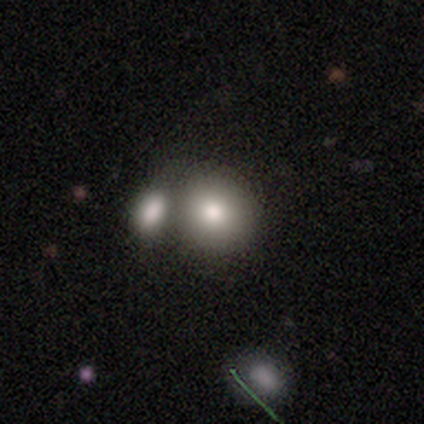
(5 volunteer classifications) Smooth or featured?
  - smooth: 80% *
  - star or artifact: 20%
  - featured or disk: 0%
How rounded?
  - round: 75% *
  - in between: 25%
  - cigar-shaped: 0%
Merging?
  - none: 75% *
  - merger: 25%
  - minor disturbance: 0%
  - major disturbance: 0%